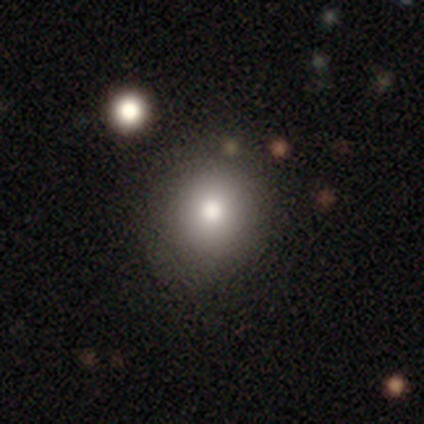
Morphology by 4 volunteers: Smooth or featured? 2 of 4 (50%) said featured or disk. Edge-on disk? 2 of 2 (100%) said no. Bar? 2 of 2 (100%) said no. Spiral arms? 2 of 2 (100%) said no. Bulge size? 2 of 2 (100%) said moderate. Merging? 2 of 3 (67%) said none.